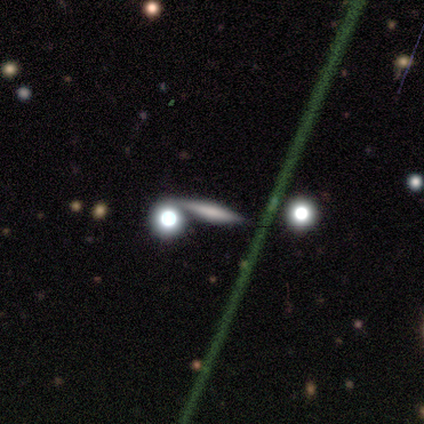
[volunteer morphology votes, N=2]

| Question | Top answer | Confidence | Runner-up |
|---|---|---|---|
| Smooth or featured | smooth | 50% | tied: featured or disk (50%) |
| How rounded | cigar-shaped | 100% | — |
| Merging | none | 100% | — |